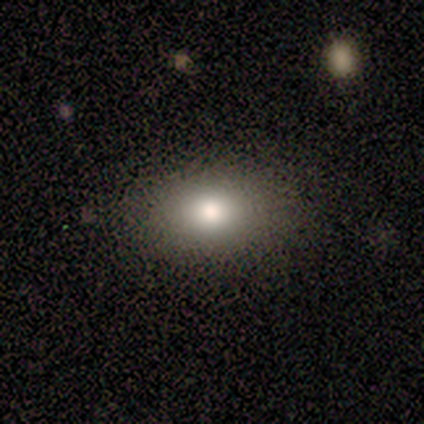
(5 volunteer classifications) This appears to be a smooth galaxy with no disk features (60%) that is in between round and cigar-shaped (67%). Merging: none (100%).